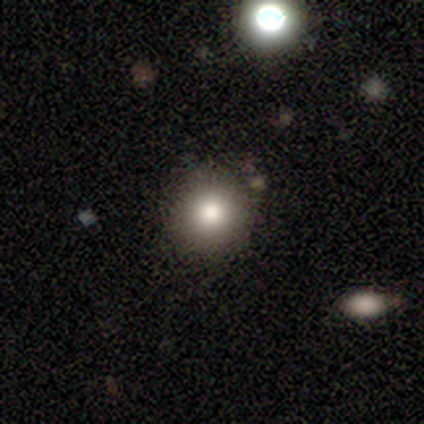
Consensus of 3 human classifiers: smooth_or_featured: smooth (p=0.67) [alt: star or artifact p=0.33]
how_rounded: round (p=0.50) [tied with: in between p=0.50]
merging: none (p=1.00)